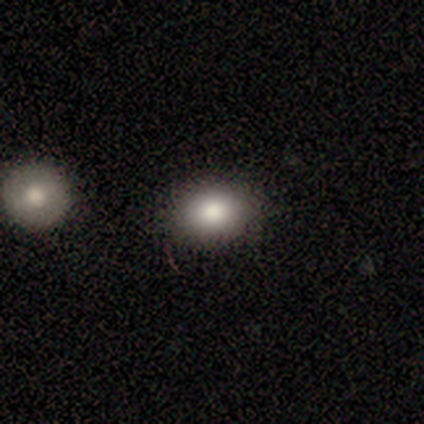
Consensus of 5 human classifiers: smooth_or_featured: smooth (p=0.80) [alt: featured or disk p=0.20]
how_rounded: round (p=0.50) [tied with: in between p=0.50]
merging: none (p=0.80) [alt: minor disturbance p=0.20]